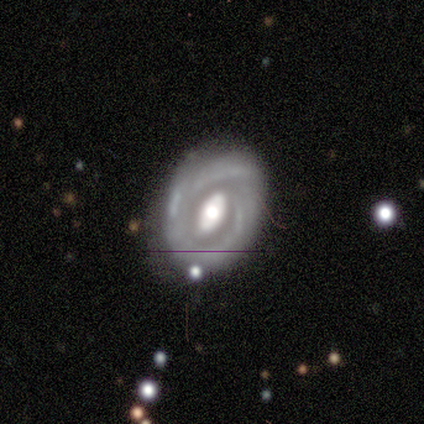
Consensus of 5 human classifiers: Morphology: type=featured or disk (100%); edge-on=no (100%); bar=strong (80%); spiral arms=yes (80%); winding=tight (75%); arm count=can't tell (75%); bulge=large (40%, tied with moderate); merging=none (60%).